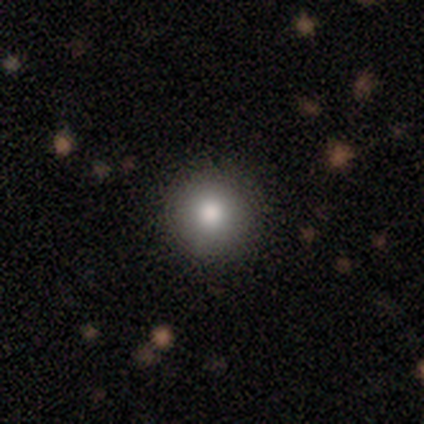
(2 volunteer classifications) A smooth galaxy with no disk features (100%) that is round (100%).

Vote fractions:
- Smooth or featured? smooth: 100% / featured or disk: 0% / star or artifact: 0%
- How rounded? round: 100% / in between: 0% / cigar-shaped: 0%
- Merging? none: 100% / minor disturbance: 0% / major disturbance: 0% / merger: 0%